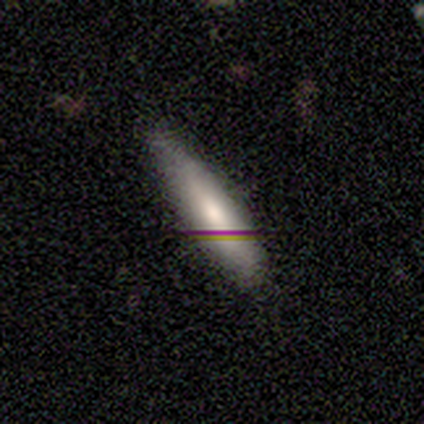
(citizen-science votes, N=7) smooth_or_featured: smooth (p=0.71) [alt: featured or disk p=0.14]
how_rounded: cigar-shaped (p=1.00)
merging: none (p=0.67) [alt: minor disturbance p=0.17]